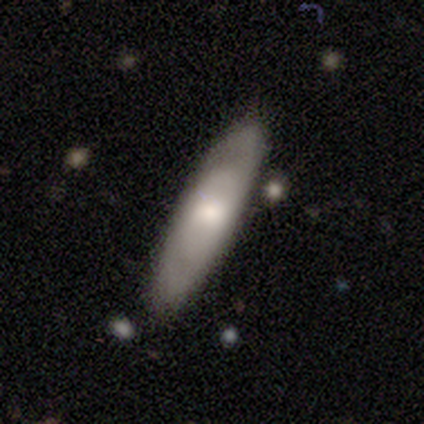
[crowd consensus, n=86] Smooth or featured: smooth — 56% (featured or disk — 35%)
How rounded: cigar-shaped — 62% (in between — 33%)
Merging: none — 77% (minor disturbance — 22%)